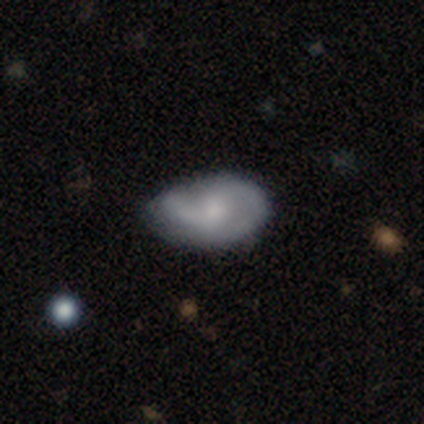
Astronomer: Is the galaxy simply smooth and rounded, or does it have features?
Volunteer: smooth — 60% (runner-up: featured or disk, 40%).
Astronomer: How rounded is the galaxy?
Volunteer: in between — 100%.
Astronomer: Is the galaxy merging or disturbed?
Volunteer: minor disturbance — 60% (runner-up: none, 40%).